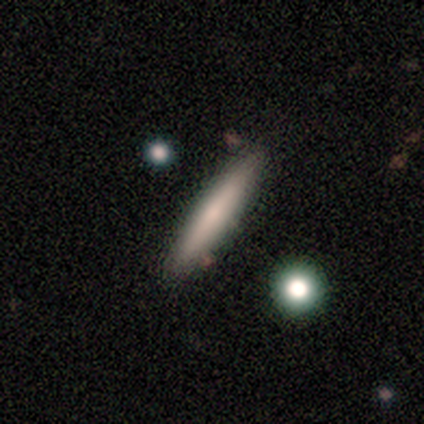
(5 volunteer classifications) A smooth galaxy with no disk features (60%) that is cigar-shaped (100%).

Vote fractions:
- Smooth or featured? smooth: 60% / featured or disk: 40% / star or artifact: 0%
- How rounded? cigar-shaped: 100% / round: 0% / in between: 0%
- Merging? none: 100% / minor disturbance: 0% / major disturbance: 0% / merger: 0%